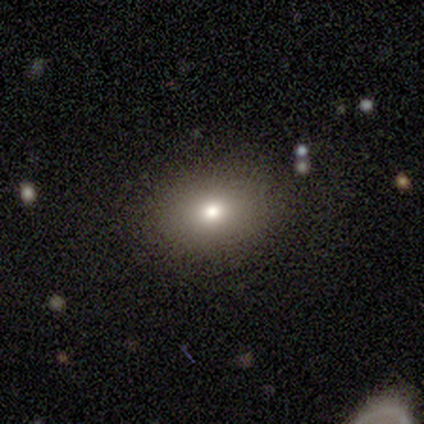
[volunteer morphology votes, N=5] This appears to be a smooth galaxy with no disk features (80%) that is round (50%). Merging: none (75%).